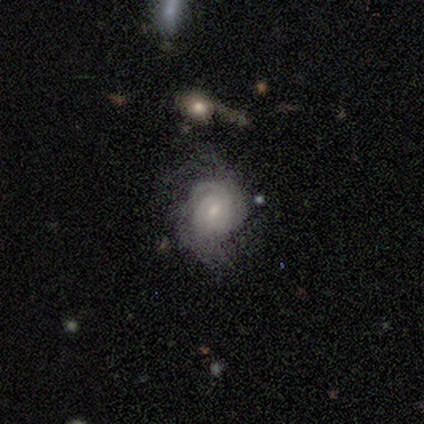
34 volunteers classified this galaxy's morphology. This appears to be a featured or disk galaxy (65%) with a weak bar (50%, tied with no), tight (67%) spiral arms (95%) and a small central bulge (64%). Merging: none (47%).